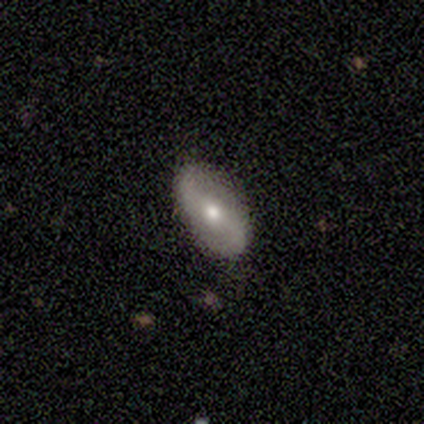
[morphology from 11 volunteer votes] Smooth or featured? 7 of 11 (64%) said featured or disk. Edge-on disk? 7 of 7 (100%) said no. Bar? 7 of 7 (100%) said no. Spiral arms? 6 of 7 (86%) said yes. Spiral winding? 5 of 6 (83%) said loose. Spiral arm count? 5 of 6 (83%) said 2. Bulge size? 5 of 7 (71%) said moderate. Merging? 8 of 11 (73%) said none.